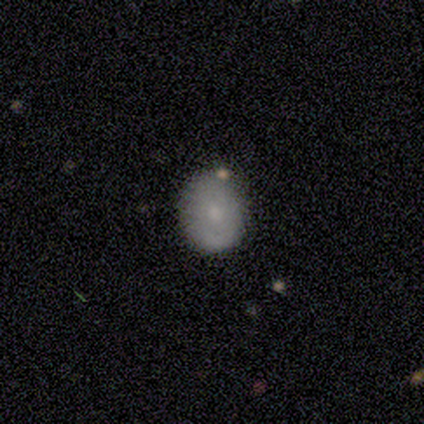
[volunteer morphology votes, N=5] Smooth or featured?
  - smooth: 100% *
  - featured or disk: 0%
  - star or artifact: 0%
How rounded?
  - in between: 60% *
  - round: 40%
  - cigar-shaped: 0%
Merging?
  - none: 80% *
  - minor disturbance: 20%
  - major disturbance: 0%
  - merger: 0%